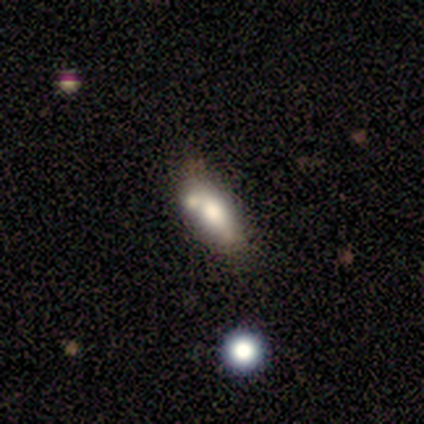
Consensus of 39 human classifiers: Smooth or featured?
  - smooth: 69% *
  - featured or disk: 23%
  - star or artifact: 8%
How rounded?
  - in between: 85% *
  - cigar-shaped: 11%
  - round: 4%
Merging?
  - none: 33% *
  - merger: 31%
  - minor disturbance: 11%
  - major disturbance: 6%